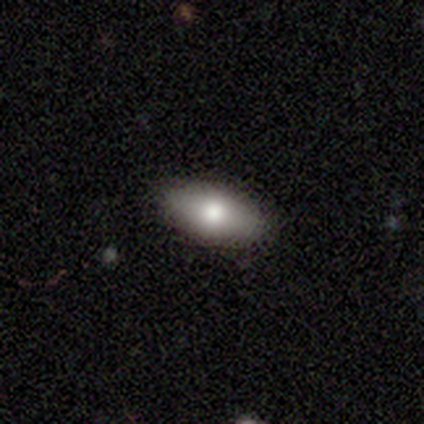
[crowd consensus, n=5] Smooth or featured?
  - smooth: 60% *
  - featured or disk: 40%
  - star or artifact: 0%
How rounded?
  - in between: 67% *
  - round: 33%
  - cigar-shaped: 0%
Merging?
  - none: 80% *
  - minor disturbance: 20%
  - major disturbance: 0%
  - merger: 0%